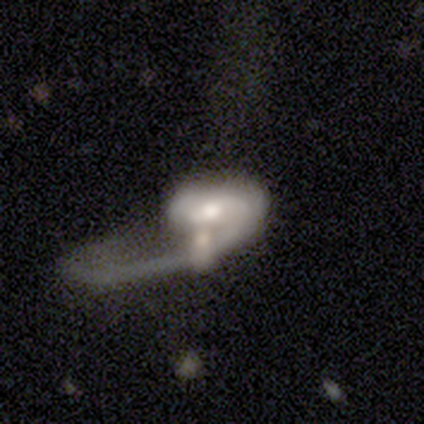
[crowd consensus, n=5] This is clearly a featured or disk galaxy (80%). It is clearly not viewed edge-on (100%). Bar: likely no (75%). Spiral arm pattern: likely yes (75%). Spiral arm count: likely 1 (67%). Spiral winding: likely loose (67%). Central bulge: possibly moderate (50%, tied with small). Merging: likely major disturbance (60%).